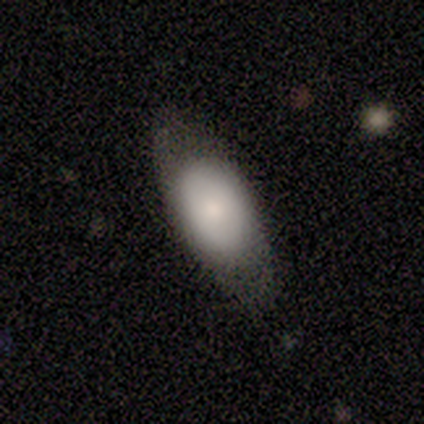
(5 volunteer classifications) A smooth galaxy with no disk features (60%) that is in between round and cigar-shaped (100%).

Vote fractions:
- Smooth or featured? smooth: 60% / featured or disk: 40% / star or artifact: 0%
- How rounded? in between: 100% / round: 0% / cigar-shaped: 0%
- Merging? none: 80% / minor disturbance: 20% / major disturbance: 0% / merger: 0%